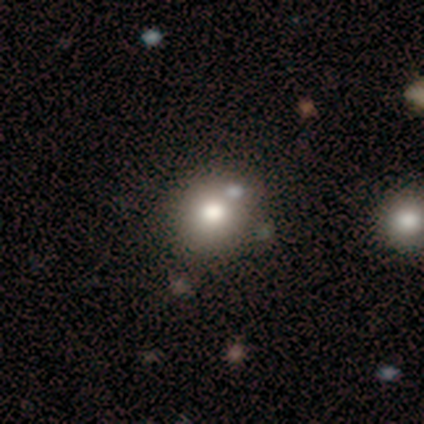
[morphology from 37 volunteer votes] A smooth galaxy with no disk features (65%) that is round (83%). Merging: none (52%).